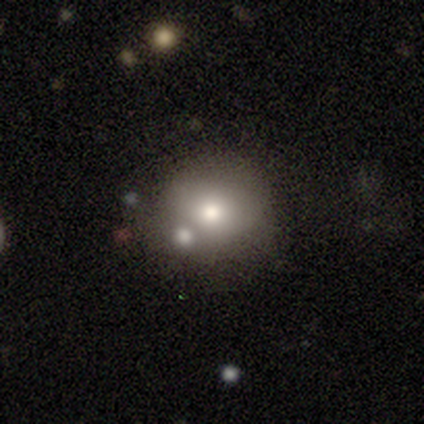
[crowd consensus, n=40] This appears to be a smooth galaxy with no disk features (75%) that is round (83%). Merging: none (58%).